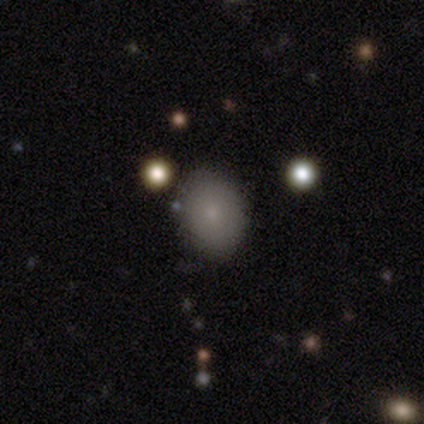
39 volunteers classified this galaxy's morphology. This appears to be a smooth galaxy with no disk features (74%) that is in between round and cigar-shaped (76%). Merging: none (85%).